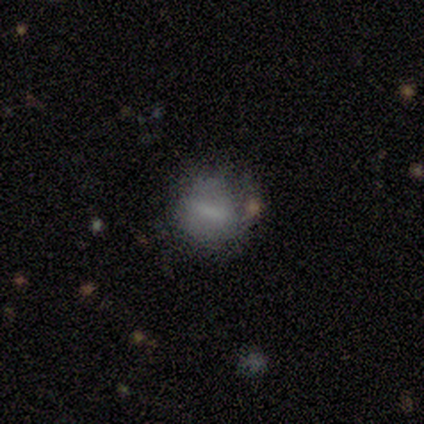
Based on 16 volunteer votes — smooth-or-featured: featured or disk: 50% | smooth: 38% | star or artifact: 12%
  disk-edge-on: no: 100% | yes: 0%
    bar: strong: 50% | weak: 38% | no: 12%
    has-spiral-arms: no: 88% | yes: 12%
    bulge-size: none: 88% | moderate: 12% | dominant: 0% | large: 0% | small: 0%
  merging: none: 43% | minor disturbance: 36% | major disturbance: 14% | merger: 7%